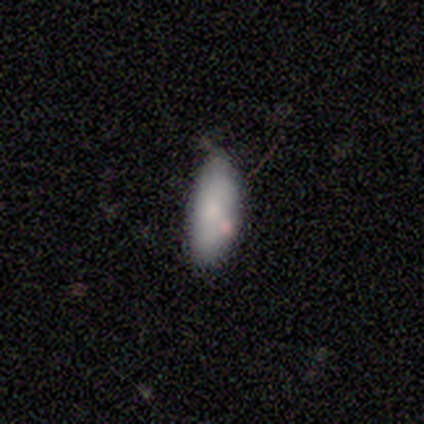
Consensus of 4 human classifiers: Overall: smooth (75%). How rounded: in between (100%). Merging: none (75%).